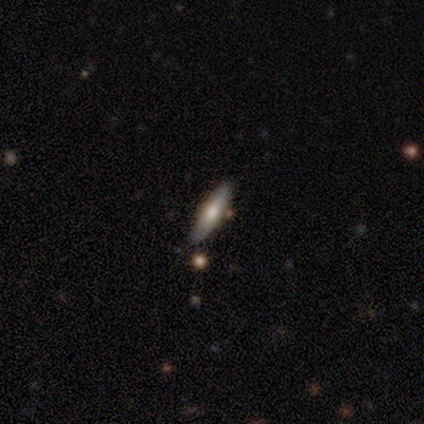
smooth 60%, featured or disk 40%, star or artifact 0%. Down the decision tree: how rounded — cigar-shaped (67%); merging — none (100%).